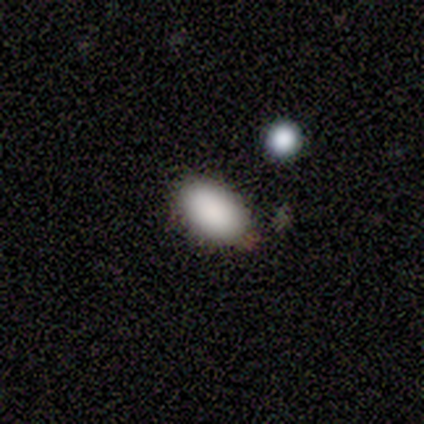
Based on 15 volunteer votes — Volunteers were most divided on "how rounded": in between: 80%, round: 20%, cigar-shaped: 0%. More confident: smooth or featured — smooth (100%); merging — none (93%).